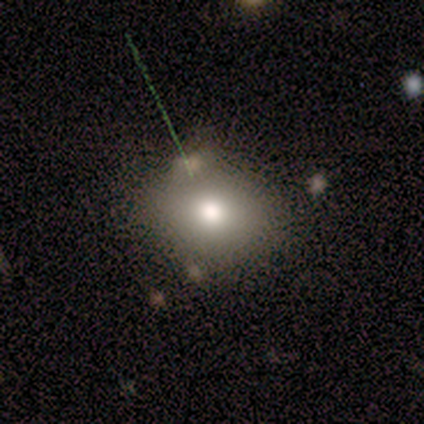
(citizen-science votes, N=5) Smooth or featured? 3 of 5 (60%) said star or artifact.